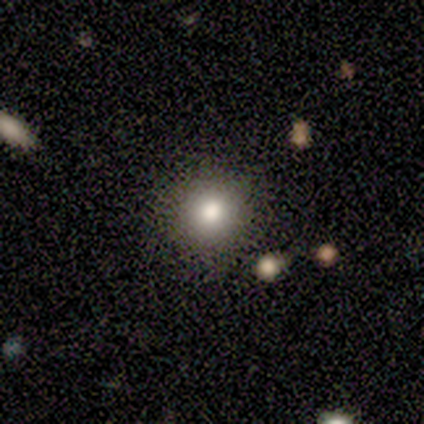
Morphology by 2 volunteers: smooth-or-featured: smooth: 50% (tied) | star or artifact: 50% (tied) | featured or disk: 0%
  how-rounded: round: 100% | in between: 0% | cigar-shaped: 0%
  merging: none: 100% | minor disturbance: 0% | major disturbance: 0% | merger: 0%